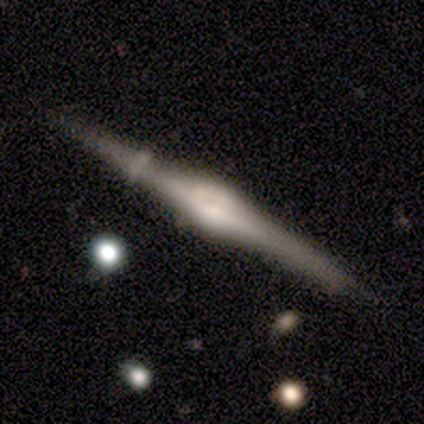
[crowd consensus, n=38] This is clearly a featured or disk galaxy (87%). It is clearly viewed edge-on (97%). Edge-on bulge: clearly rounded (81%). Merging: likely none (74%).